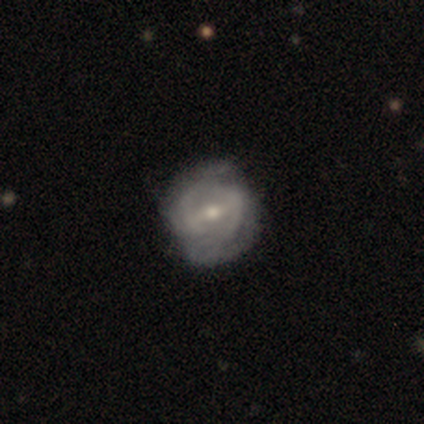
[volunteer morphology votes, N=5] Volunteers were most divided on "bar": weak: 60%, strong: 40%, no: 0%. More confident: smooth or featured — featured or disk (100%); edge-on disk — no (100%); spiral arm count — 2 (100%); bulge size — moderate (100%); spiral arms — yes (80%); spiral winding — tight (75%); merging — minor disturbance (60%).